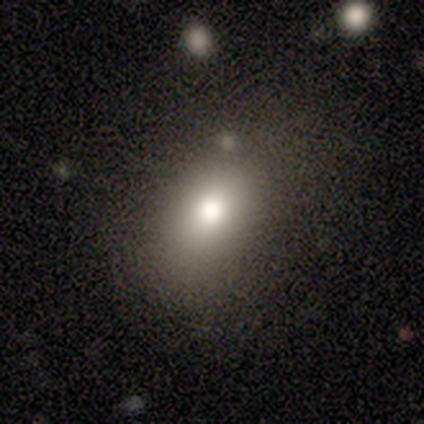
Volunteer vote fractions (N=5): smooth 60%, featured or disk 40%, star or artifact 0%. Down the decision tree: how rounded — in between (100%); merging — none (60%).